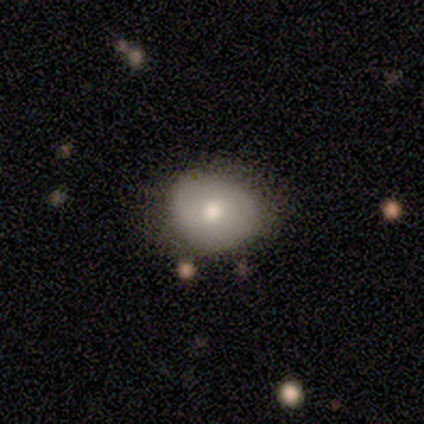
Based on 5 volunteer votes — This is likely a featured or disk galaxy (60%). It is clearly not viewed edge-on (100%). Bar: likely no (67%). Spiral arm pattern: likely no (67%). Central bulge: likely moderate (67%). Merging: clearly none (80%).